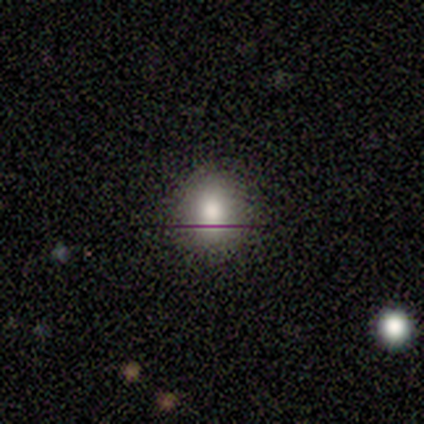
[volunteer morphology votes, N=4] A smooth galaxy with no disk features (50%, tied with star or artifact) that is round (100%). Merging: none (100%).